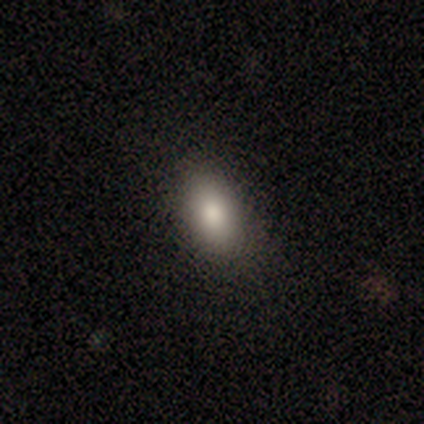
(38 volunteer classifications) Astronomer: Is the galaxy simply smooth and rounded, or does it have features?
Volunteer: smooth — 82%.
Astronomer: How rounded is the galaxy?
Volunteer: in between — 94%.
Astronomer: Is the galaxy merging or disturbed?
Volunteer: none — 89%.